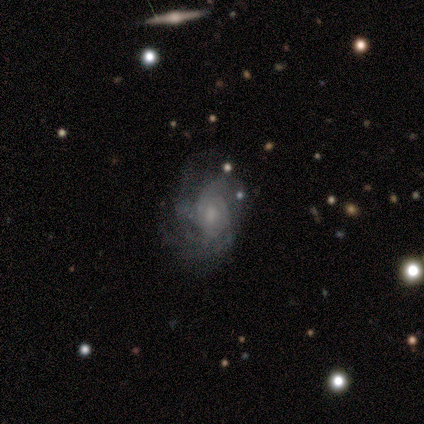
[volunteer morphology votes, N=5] smooth_or_featured: featured or disk (p=1.00)
disk_edge_on: no (p=1.00)
bar: no (p=0.80) [alt: weak p=0.20]
has_spiral_arms: yes (p=1.00)
spiral_winding: tight (p=0.40) [tied with: medium p=0.40]
spiral_arm_count: can't tell (p=0.40) [alt: 3 p=0.20]
bulge_size: moderate (p=0.40) [tied with: small p=0.40]
merging: none (p=0.60) [alt: minor disturbance p=0.20]